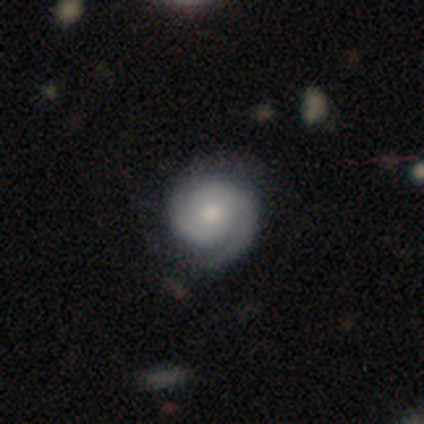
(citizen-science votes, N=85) A featured or disk galaxy (68%) with no bar (86%), 2 (58%) tight (75%) spiral arms (91%) and a moderate central bulge (60%). Merging: none (74%).